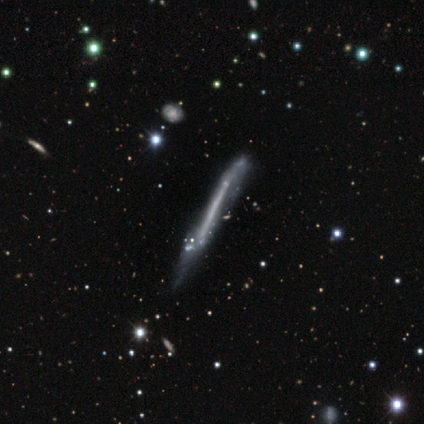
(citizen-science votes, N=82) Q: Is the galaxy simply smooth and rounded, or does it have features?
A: featured or disk — 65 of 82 (79%).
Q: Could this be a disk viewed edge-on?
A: yes — 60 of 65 (92%).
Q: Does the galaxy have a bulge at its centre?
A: none — 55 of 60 (92%).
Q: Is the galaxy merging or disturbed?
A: minor disturbance — 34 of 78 (44%).